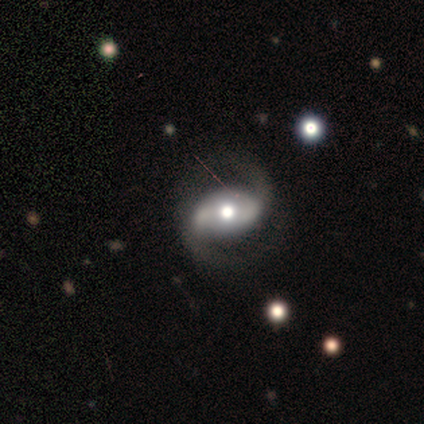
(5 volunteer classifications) Smooth or featured? featured or disk (60%)
Edge-on disk? no (100%)
Bar? strong (67%)
Spiral arms? yes (100%)
Spiral winding? tight (33%, tied with medium and loose)
Spiral arm count? 2 (100%)
Bulge size? moderate (67%)
Merging? none (80%)